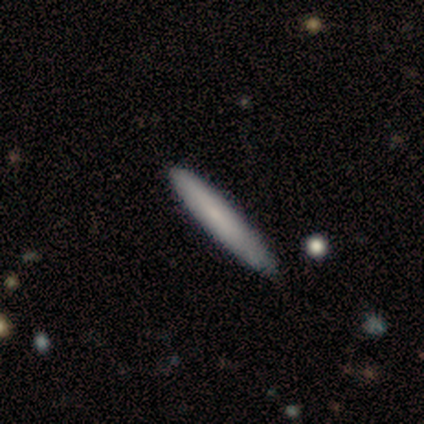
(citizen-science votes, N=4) Overall: smooth (75%). How rounded: cigar-shaped (100%). Merging: none (100%).